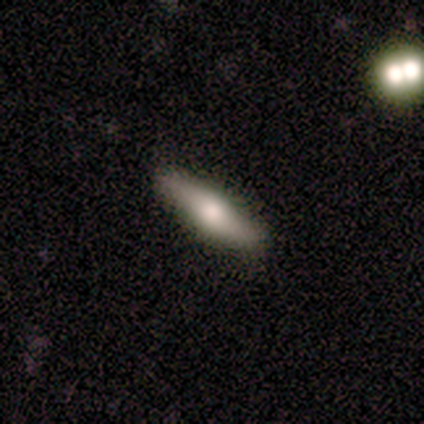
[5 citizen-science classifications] Smooth or featured? smooth (80%)
How rounded? cigar-shaped (75%)
Merging? none (100%)